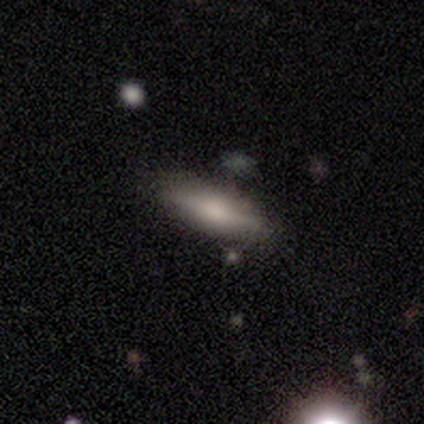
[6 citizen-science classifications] Smooth or featured? smooth (67%)
How rounded? in between (75%)
Merging? none (100%)